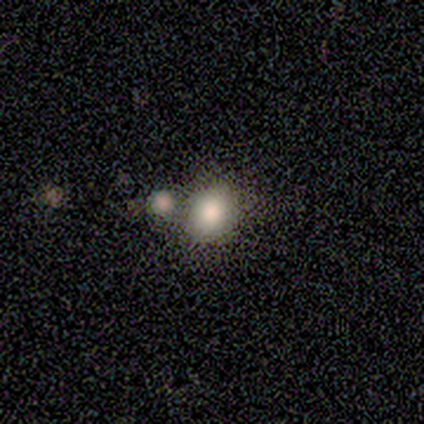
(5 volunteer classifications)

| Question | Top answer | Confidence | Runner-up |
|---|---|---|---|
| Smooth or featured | smooth | 80% | featured or disk (20%) |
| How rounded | round | 75% | in between (25%) |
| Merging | none | 60% | minor disturbance (20%) |